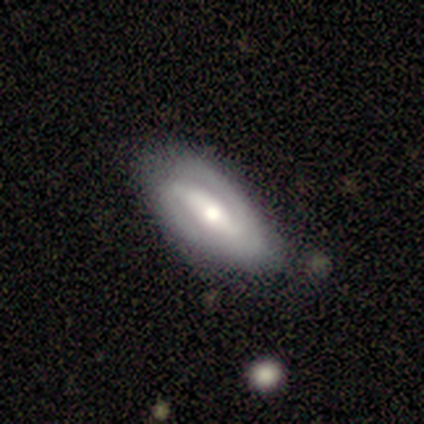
Morphology: type=featured or disk (100%); edge-on=no (100%); bar=strong (60%); spiral arms=yes (60%); winding=medium (67%); arm count=2 (100%); bulge=small (60%); merging=none (100%).